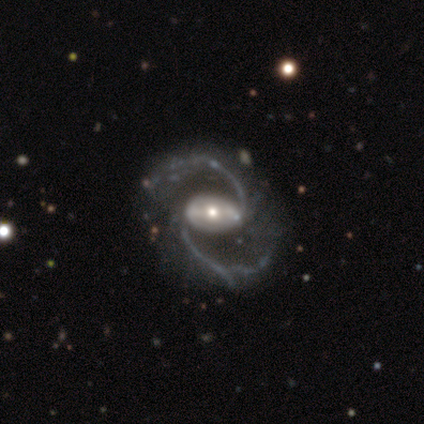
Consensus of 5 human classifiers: A featured or disk galaxy (100%) with a strong bar (75%), 2 (100%) medium (67%) spiral arms (75%) and a moderate central bulge (75%).

Vote fractions:
- Smooth or featured? featured or disk: 100% / smooth: 0% / star or artifact: 0%
- Edge-on disk? no: 80% / yes: 20%
- Bar? strong: 75% / no: 25% / weak: 0%
- Spiral arms? yes: 75% / no: 25%
- Spiral winding? medium: 67% / loose: 33% / tight: 0%
- Spiral arm count? 2: 100% / 1: 0% / 3: 0% / 4: 0% / more than 4: 0% / can't tell: 0%
- Bulge size? moderate: 75% / large: 25% / dominant: 0% / small: 0% / none: 0%
- Merging? none: 100% / minor disturbance: 0% / major disturbance: 0% / merger: 0%